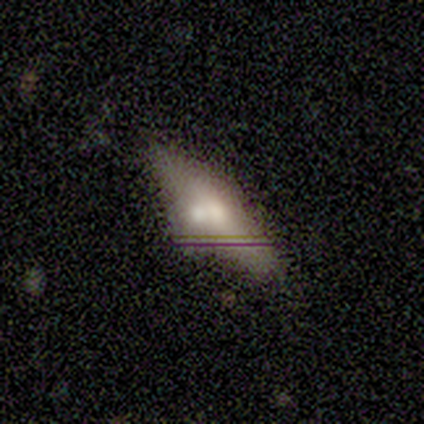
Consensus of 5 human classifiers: This appears to be a smooth galaxy with no disk features (60%) that is cigar-shaped (100%). Merging: none (60%).